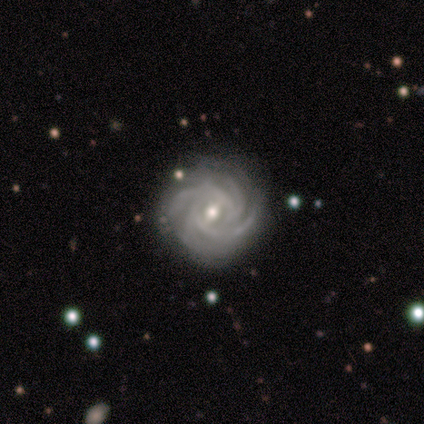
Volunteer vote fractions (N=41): Morphology: type=featured or disk (93%); edge-on=no (100%); bar=weak (63%); spiral arms=yes (100%); winding=tight (68%); arm count=more than 4 (39%); bulge=moderate (74%); merging=none (79%).